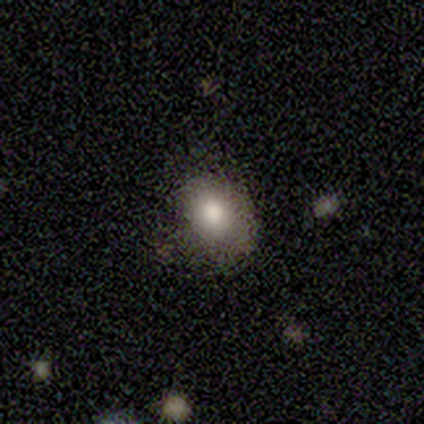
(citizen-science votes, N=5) This is clearly a smooth galaxy (100%). How rounded: clearly round (80%). Merging: clearly none (100%).